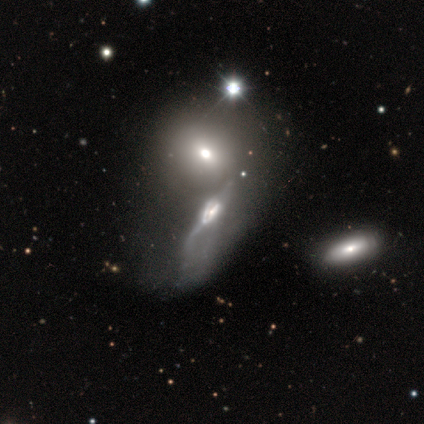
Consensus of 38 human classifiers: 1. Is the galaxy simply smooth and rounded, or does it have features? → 76% featured or disk, 16% smooth, 8% star or artifact.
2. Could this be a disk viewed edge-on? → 59% no, 41% yes.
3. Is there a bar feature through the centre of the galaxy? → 47% no, 41% weak, 12% strong.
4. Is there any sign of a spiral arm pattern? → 59% yes, 41% no.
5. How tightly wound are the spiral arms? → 50% loose, 30% tight, 20% medium.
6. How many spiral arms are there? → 40% 1 (tied), 40% can't tell (tied), 20% 2, 0% 3, 0% 4, 0% more than 4.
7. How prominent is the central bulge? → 53% moderate, 29% small, 12% large, 6% dominant, 0% none.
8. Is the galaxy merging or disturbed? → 63% merger, 14% none, 14% major disturbance, 9% minor disturbance.